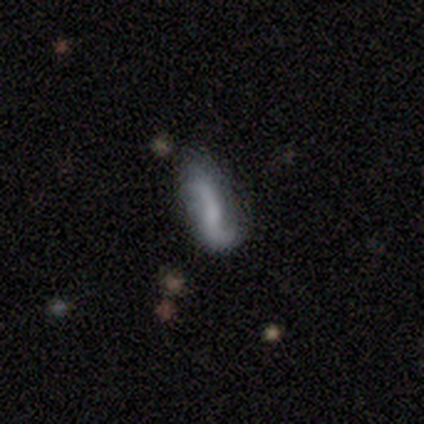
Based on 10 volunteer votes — Volunteers were most divided on "smooth or featured": featured or disk: 50%, smooth: 40%, star or artifact: 10%. More confident: edge-on disk — no (100%); spiral winding — loose (67%); spiral arm count — 2 (67%); merging — none (67%); bar — weak (60%); spiral arms — yes (60%); bulge size — small (60%).